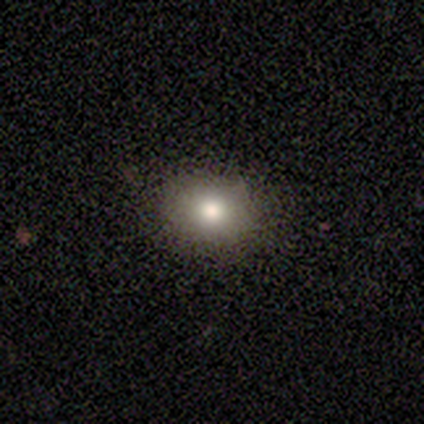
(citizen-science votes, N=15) Q: Smooth or featured?
A: smooth (53%); runner-up: star or artifact (27%)
Q: How rounded?
A: in between (62%); runner-up: round (38%)
Q: Merging?
A: none (91%); runner-up: minor disturbance (9%)